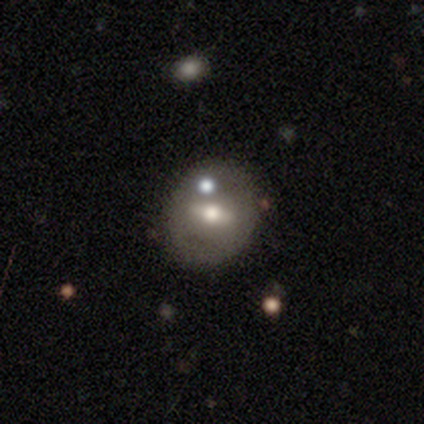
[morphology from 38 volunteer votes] Q: Smooth or featured?
A: featured or disk (58%); runner-up: smooth (37%)
Q: Edge-on disk?
A: no (82%); runner-up: yes (18%)
Q: Bar?
A: weak (39%); runner-up: strong (33%)
Q: Spiral arms?
A: no (94%); runner-up: yes (6%)
Q: Bulge size?
A: moderate (78%); runner-up: small (22%)
Q: Merging?
A: none (75%); runner-up: minor disturbance (17%)